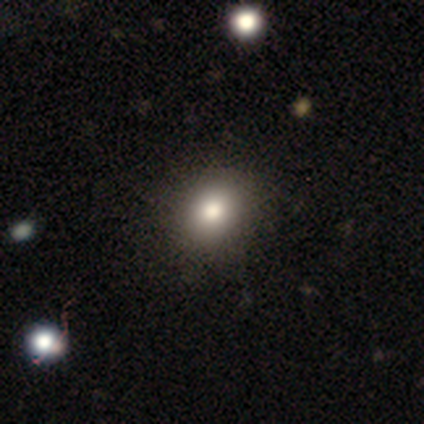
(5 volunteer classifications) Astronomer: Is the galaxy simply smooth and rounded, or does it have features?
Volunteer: smooth — 100%.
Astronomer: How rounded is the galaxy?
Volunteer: in between — 60% (runner-up: round, 40%).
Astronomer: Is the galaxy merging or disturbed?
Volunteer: none — 100%.